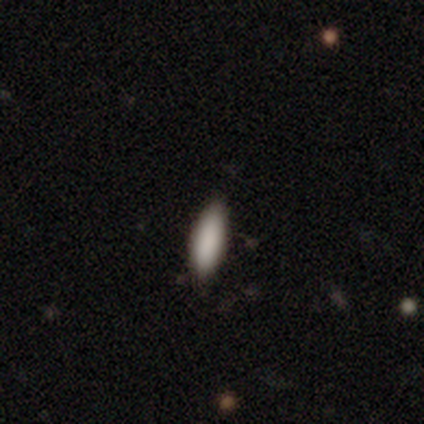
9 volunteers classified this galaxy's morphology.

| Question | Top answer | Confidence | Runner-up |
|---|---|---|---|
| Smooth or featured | smooth | 100% | — |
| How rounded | in between | 67% | cigar-shaped (33%) |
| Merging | none | 89% | minor disturbance (11%) |